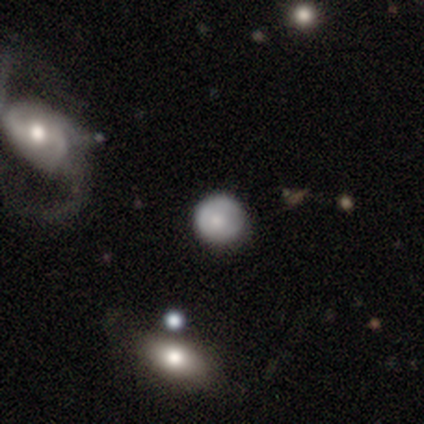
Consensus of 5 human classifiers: Smooth or featured?
  - smooth: 60% *
  - featured or disk: 40%
  - star or artifact: 0%
How rounded?
  - round: 67% *
  - in between: 33%
  - cigar-shaped: 0%
Merging?
  - none: 60% *
  - minor disturbance: 40%
  - major disturbance: 0%
  - merger: 0%